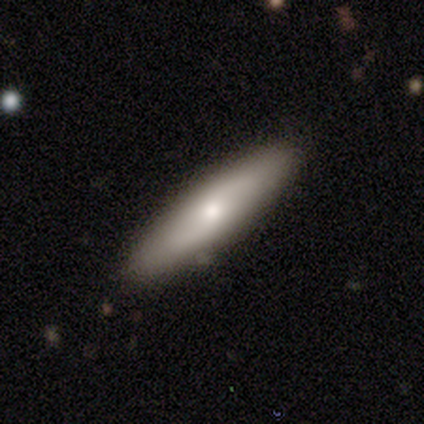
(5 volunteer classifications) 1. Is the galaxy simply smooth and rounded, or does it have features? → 80% smooth, 20% featured or disk, 0% star or artifact.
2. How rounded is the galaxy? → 50% in between (tied), 50% cigar-shaped (tied), 0% round.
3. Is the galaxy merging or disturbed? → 80% none, 20% minor disturbance, 0% major disturbance, 0% merger.